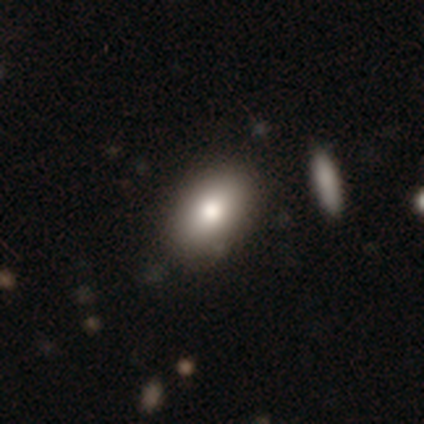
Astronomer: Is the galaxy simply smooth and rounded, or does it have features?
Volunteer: smooth — 75%.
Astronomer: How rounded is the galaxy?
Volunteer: in between — 100%.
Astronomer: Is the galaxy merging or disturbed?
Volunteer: none — 50%.